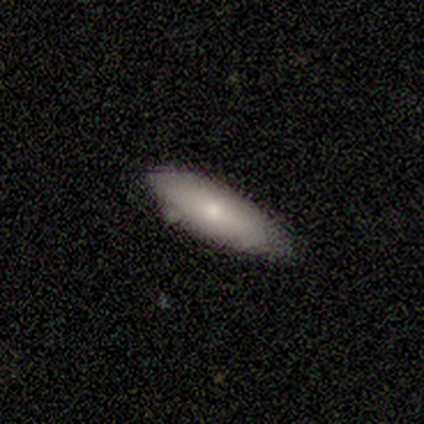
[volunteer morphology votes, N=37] type=smooth (70%); roundness=in between (50%, tied with cigar-shaped); merging=none (62%).